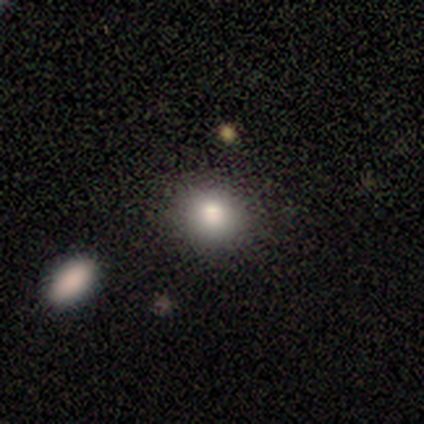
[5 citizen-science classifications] A smooth galaxy with no disk features (100%) that is round (80%).

Vote fractions:
- Smooth or featured? smooth: 100% / featured or disk: 0% / star or artifact: 0%
- How rounded? round: 80% / in between: 20% / cigar-shaped: 0%
- Merging? none: 100% / minor disturbance: 0% / major disturbance: 0% / merger: 0%